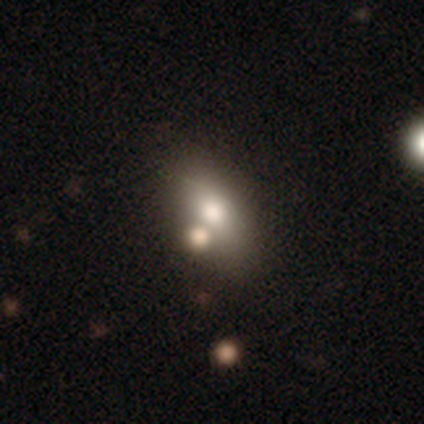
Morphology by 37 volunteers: This appears to be a smooth galaxy with no disk features (62%) that is in between round and cigar-shaped (74%). Merging: none (80%).